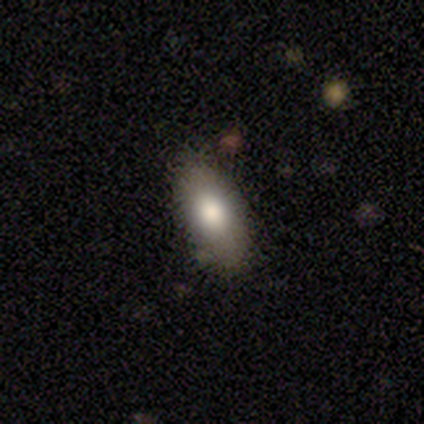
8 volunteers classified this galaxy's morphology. This is clearly a smooth galaxy (100%). How rounded: clearly in between (100%). Merging: clearly none (100%).